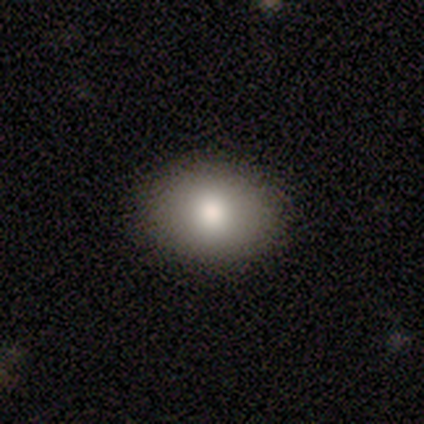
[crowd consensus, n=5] smooth 80%, featured or disk 20%, star or artifact 0%. Down the decision tree: how rounded — in between (75%); merging — none (80%).